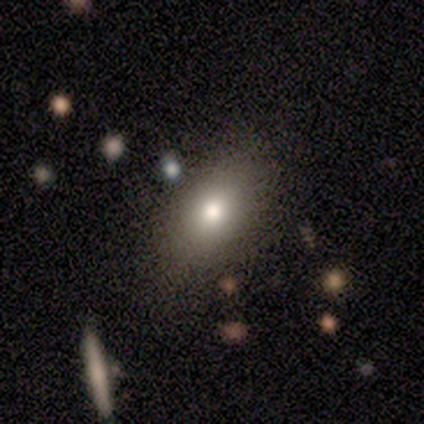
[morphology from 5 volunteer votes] Overall: smooth (60%; star or artifact 40%). How rounded: in between (67%; round 33%). Merging: none (67%; minor disturbance 33%).